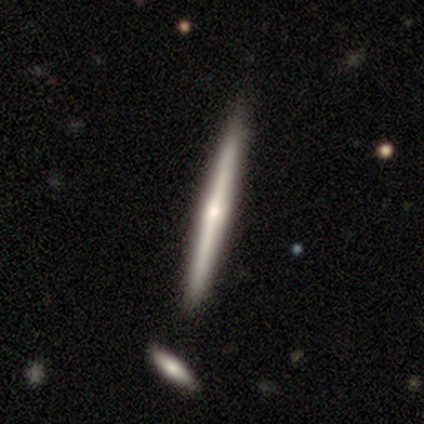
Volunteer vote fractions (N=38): A featured or disk galaxy (68%) viewed edge-on (96%) with a rounded central bulge (84%). Merging: none (50%).